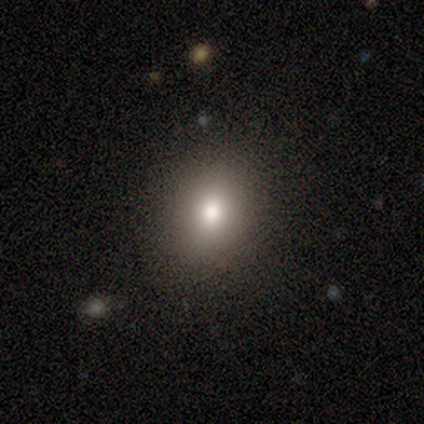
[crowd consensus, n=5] Smooth or featured? 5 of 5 (100%) said smooth. How rounded? 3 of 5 (60%) said in between. Merging? 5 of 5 (100%) said none.